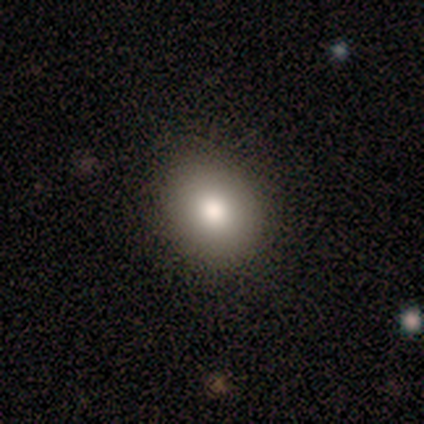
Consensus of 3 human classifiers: This is clearly a smooth galaxy (100%). How rounded: likely in between (67%). Merging: clearly none (100%).